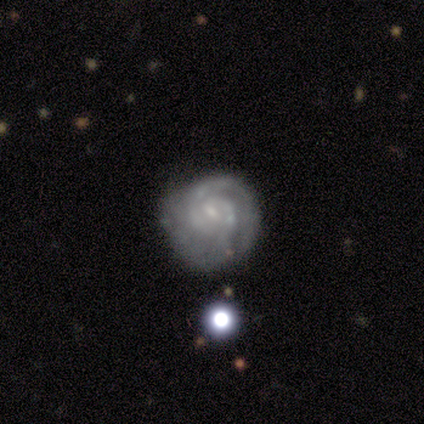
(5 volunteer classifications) Smooth or featured: featured or disk — 80% (smooth — 20%)
Edge-on disk: no — 100%
Bar: weak — 75% (no — 25%)
Spiral arms: yes — 100%
Spiral winding: tight — 100%
Spiral arm count: 2 — 50% (1 — 25%)
Bulge size: small — 50% (moderate — 25%)
Merging: none — 80% (minor disturbance — 20%)